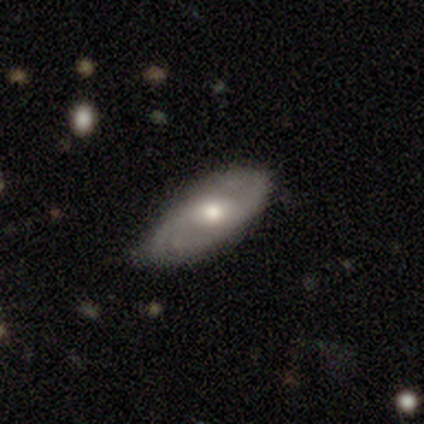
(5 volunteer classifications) This appears to be a featured or disk galaxy (80%) with no bar (67%), 2 (67%) medium (100%) spiral arms (100%) and a moderate central bulge (67%). Merging: none (60%).